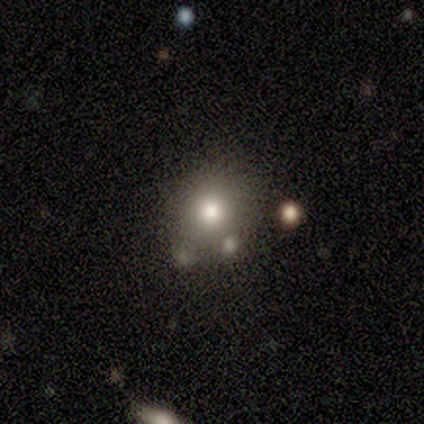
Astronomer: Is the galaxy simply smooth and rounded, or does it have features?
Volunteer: smooth — 80%.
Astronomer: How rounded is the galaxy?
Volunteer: round — 100%.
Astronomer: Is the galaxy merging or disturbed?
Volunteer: none — 80%.